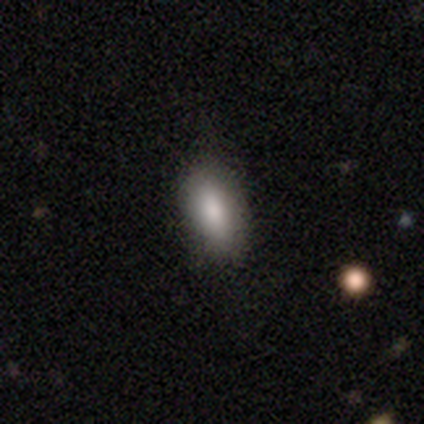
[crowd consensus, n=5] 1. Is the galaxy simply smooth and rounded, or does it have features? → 100% smooth, 0% featured or disk, 0% star or artifact.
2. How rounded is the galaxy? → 100% in between, 0% round, 0% cigar-shaped.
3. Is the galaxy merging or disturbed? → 100% none, 0% minor disturbance, 0% major disturbance, 0% merger.